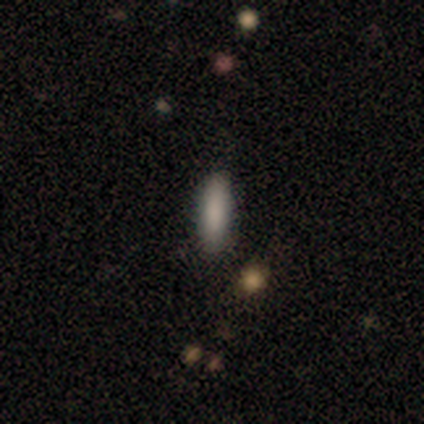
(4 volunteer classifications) Morphology: type=smooth (75%); roundness=in between (67%); merging=none (100%).